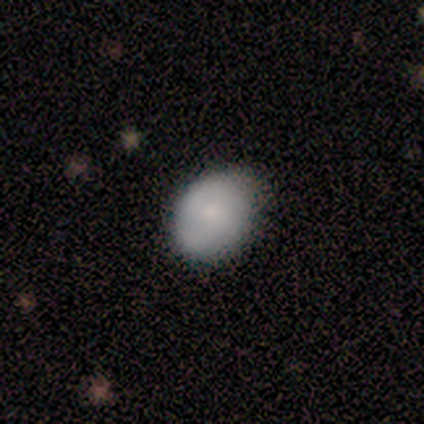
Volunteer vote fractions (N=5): Smooth or featured? smooth (100%)
How rounded? in between (60%)
Merging? none (80%)